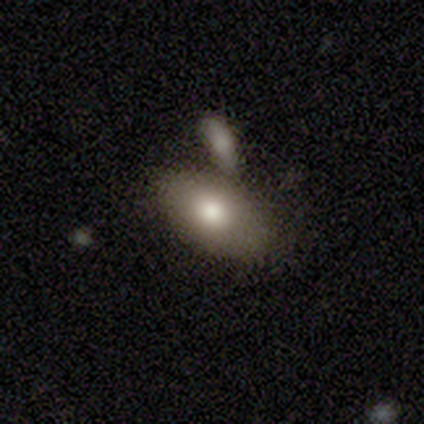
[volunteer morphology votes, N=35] This is clearly a smooth galaxy (86%). How rounded: clearly in between (93%). Merging: likely merger (60%).